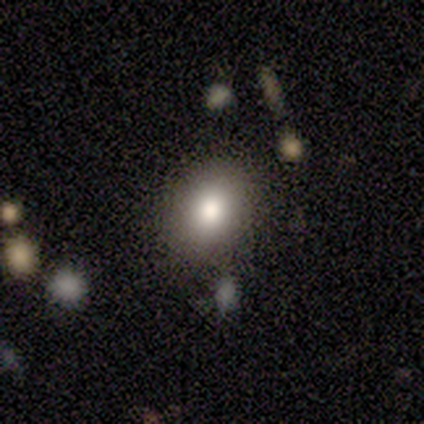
This is clearly a smooth galaxy (80%). How rounded: possibly round (50%, tied with in between). Merging: clearly none (100%).